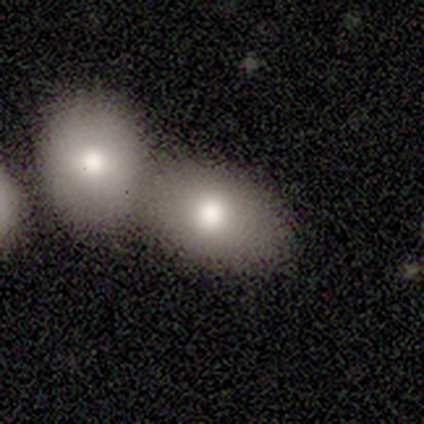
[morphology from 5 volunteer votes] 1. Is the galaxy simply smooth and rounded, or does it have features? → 80% smooth, 20% featured or disk, 0% star or artifact.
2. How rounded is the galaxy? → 75% in between, 25% round, 0% cigar-shaped.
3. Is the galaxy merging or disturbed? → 60% none, 40% merger, 0% minor disturbance, 0% major disturbance.